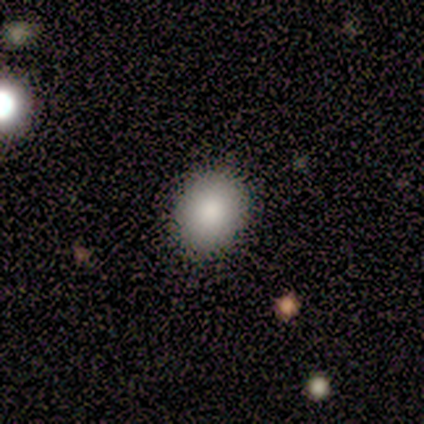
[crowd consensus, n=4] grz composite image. It shows a smooth galaxy with no disk features (100%) that is in between round and cigar-shaped (75%). Merging: none (75%).